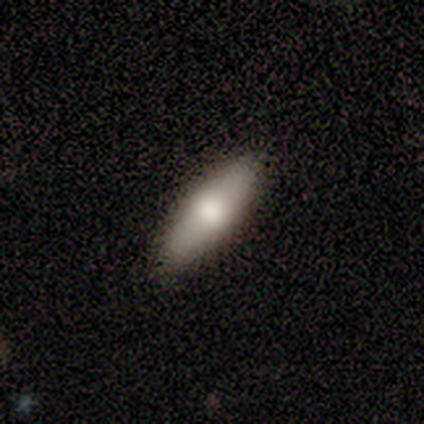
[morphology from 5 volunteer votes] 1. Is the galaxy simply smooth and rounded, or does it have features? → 80% smooth, 20% featured or disk, 0% star or artifact.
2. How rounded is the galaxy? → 75% in between, 25% cigar-shaped, 0% round.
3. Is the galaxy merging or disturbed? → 100% none, 0% minor disturbance, 0% major disturbance, 0% merger.